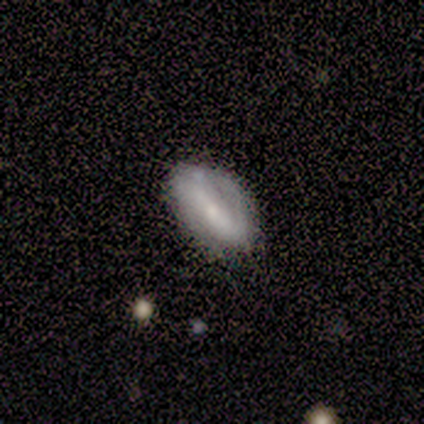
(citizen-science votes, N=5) This is likely a featured or disk galaxy (60%). It is likely not viewed edge-on (67%). Bar: possibly strong (50%, tied with weak). Spiral arm pattern: possibly yes (50%, tied with no). Spiral arm count: clearly 2 (100%). Spiral winding: clearly tight (100%). Central bulge: clearly moderate (100%). Merging: clearly none (80%).